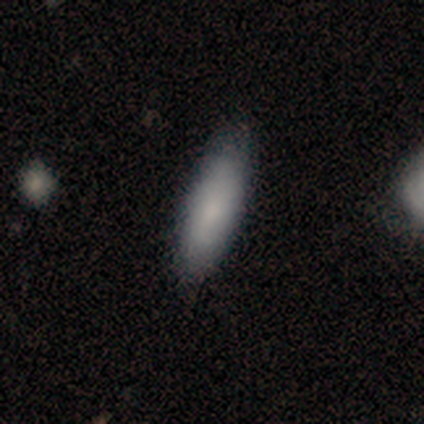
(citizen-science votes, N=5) Smooth or featured?
  - smooth: 100% *
  - featured or disk: 0%
  - star or artifact: 0%
How rounded?
  - in between: 80% *
  - cigar-shaped: 20%
  - round: 0%
Merging?
  - none: 60% *
  - major disturbance: 20%
  - merger: 20%
  - minor disturbance: 0%